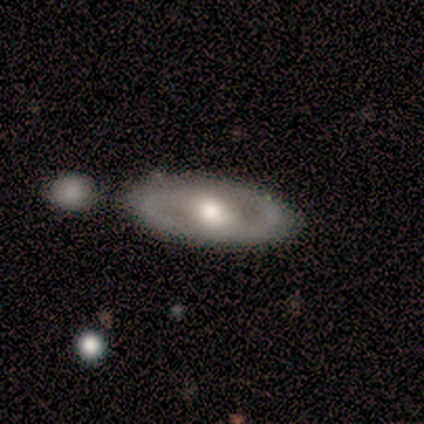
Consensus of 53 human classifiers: Q: Smooth or featured?
A: featured or disk (81%); runner-up: smooth (15%)
Q: Edge-on disk?
A: no (88%); runner-up: yes (12%)
Q: Bar?
A: no (50%); runner-up: weak (37%)
Q: Spiral arms?
A: yes (63%); runner-up: no (37%)
Q: Spiral winding?
A: medium (50%); runner-up: tight (38%)
Q: Spiral arm count?
A: 2 (92%); runner-up: 3 (4%)
Q: Bulge size?
A: moderate (55%); runner-up: large (26%)
Q: Merging?
A: none (69%); runner-up: minor disturbance (16%)